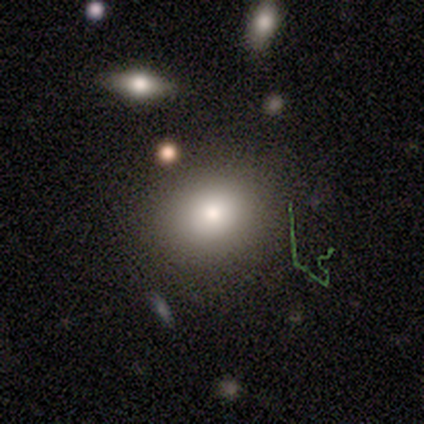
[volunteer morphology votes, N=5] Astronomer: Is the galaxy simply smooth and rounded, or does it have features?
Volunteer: smooth — 40%, tied with star or artifact at 40%.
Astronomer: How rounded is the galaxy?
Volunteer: round — 100%.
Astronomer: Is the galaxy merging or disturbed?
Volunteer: none — 100%.